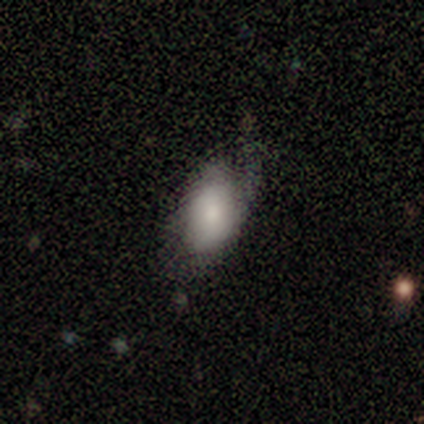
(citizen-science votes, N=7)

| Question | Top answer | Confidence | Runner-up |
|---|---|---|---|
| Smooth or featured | smooth | 57% | star or artifact (29%) |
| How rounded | in between | 100% | — |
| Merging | none | 60% | minor disturbance (40%) |